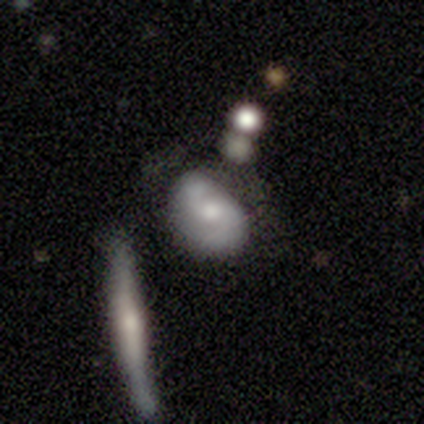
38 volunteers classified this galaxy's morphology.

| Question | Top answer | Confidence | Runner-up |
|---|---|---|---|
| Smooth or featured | featured or disk | 68% | smooth (32%) |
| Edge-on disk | no | 96% | yes (4%) |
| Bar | no | 76% | weak (16%) |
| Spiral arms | yes | 88% | no (12%) |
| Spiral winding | tight | 41% | medium (36%) |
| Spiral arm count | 2 | 86% | can't tell (9%) |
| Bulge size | moderate | 52% | small (24%) |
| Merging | none | 29% | merger (26%) |